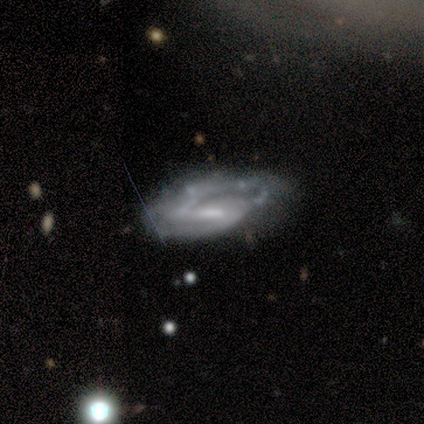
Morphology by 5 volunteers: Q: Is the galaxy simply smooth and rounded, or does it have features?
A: featured or disk — 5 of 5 (100%).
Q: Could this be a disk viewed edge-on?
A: no — 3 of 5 (60%).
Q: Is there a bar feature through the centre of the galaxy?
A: weak — 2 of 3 (67%).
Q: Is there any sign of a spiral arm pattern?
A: yes — 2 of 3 (67%).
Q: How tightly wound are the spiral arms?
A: tight — 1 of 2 (50%, tied with loose).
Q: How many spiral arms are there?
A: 1 — 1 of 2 (50%, tied with 2).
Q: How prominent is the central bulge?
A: small — 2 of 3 (67%).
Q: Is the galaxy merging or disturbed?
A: none — 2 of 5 (40%, tied with minor disturbance).